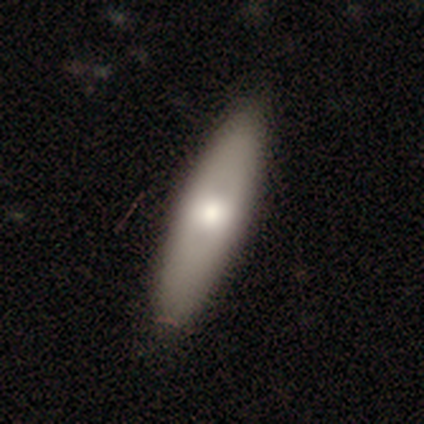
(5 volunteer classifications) Q: Smooth or featured?
A: smooth (80%); runner-up: featured or disk (20%)
Q: How rounded?
A: in between (75%); runner-up: cigar-shaped (25%)
Q: Merging?
A: none (100%)